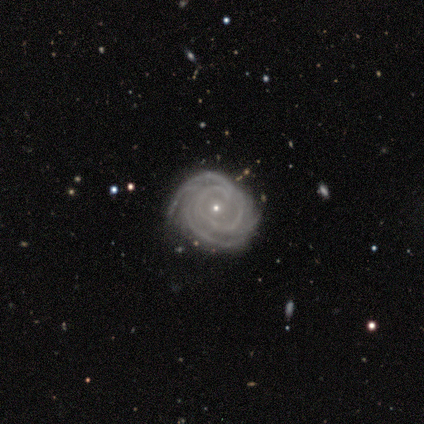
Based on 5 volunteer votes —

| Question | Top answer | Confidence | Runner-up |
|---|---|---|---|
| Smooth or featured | featured or disk | 100% | — |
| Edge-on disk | no | 100% | — |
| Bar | no | 80% | strong (20%) |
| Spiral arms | yes | 100% | — |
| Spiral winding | tight | 100% | — |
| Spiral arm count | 3 | 60% | 4 (40%) |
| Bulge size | small | 80% | moderate (20%) |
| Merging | none | 40% | tied: minor disturbance (40%) |